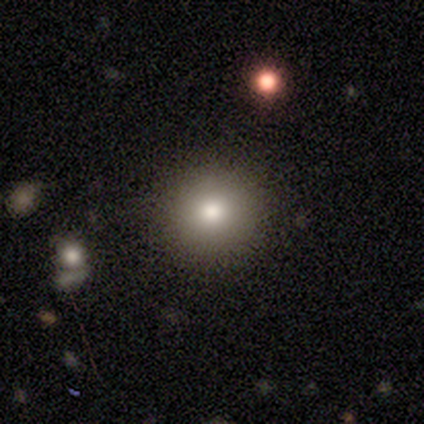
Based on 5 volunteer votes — Overall: smooth (60%; featured or disk 20%). How rounded: round (67%; in between 33%). Merging: none (100%).